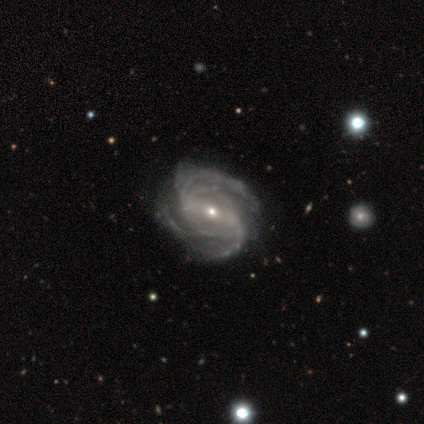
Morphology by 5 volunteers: A featured or disk galaxy (100%) with a strong bar (60%), 2 (60%) medium (60%) spiral arms (100%) and a moderate central bulge (60%). Merging: none (80%).